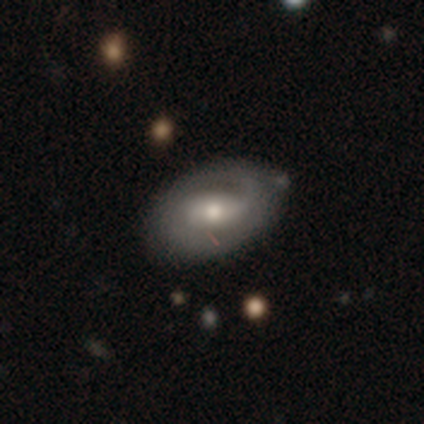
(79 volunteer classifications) A featured or disk galaxy (72%) with a weak bar (39%), 2 (56%) tight (67%) spiral arms (77%) and a moderate central bulge (68%).

Vote fractions:
- Smooth or featured? featured or disk: 72% / smooth: 23% / star or artifact: 5%
- Edge-on disk? no: 98% / yes: 2%
- Bar? weak: 39% / no: 34% / strong: 27%
- Spiral arms? yes: 77% / no: 23%
- Spiral winding? tight: 67% / medium: 26% / loose: 7%
- Spiral arm count? 2: 56% / can't tell: 28% / 1: 16% / 3: 0% / 4: 0% / more than 4: 0%
- Bulge size? moderate: 68% / small: 20% / large: 11% / dominant: 2% / none: 0%
- Merging? none: 32% / minor disturbance: 15% / merger: 3% / major disturbance: 1%